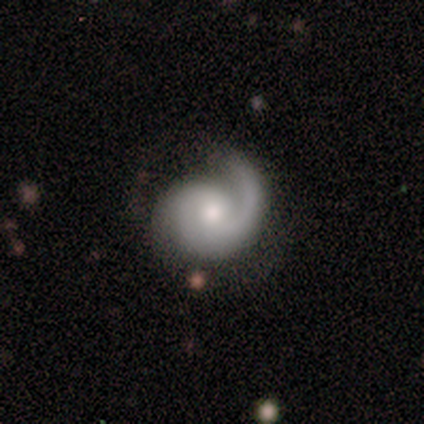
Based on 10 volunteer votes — Morphology: type=featured or disk (80%); edge-on=no (100%); bar=no (88%); spiral arms=yes (100%); winding=tight (50%); arm count=1 (75%); bulge=moderate (50%); merging=none (44%, tied with minor disturbance).